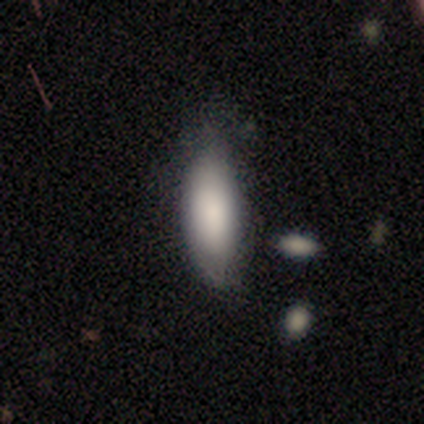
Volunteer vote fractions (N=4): smooth 100%, featured or disk 0%, star or artifact 0%. Down the decision tree: how rounded — in between (100%); merging — none (75%).